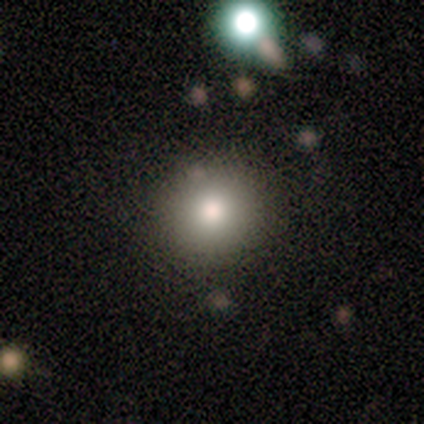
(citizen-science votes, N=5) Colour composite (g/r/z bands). It shows a smooth galaxy with no disk features (80%) that is round (100%). Merging: none (80%).